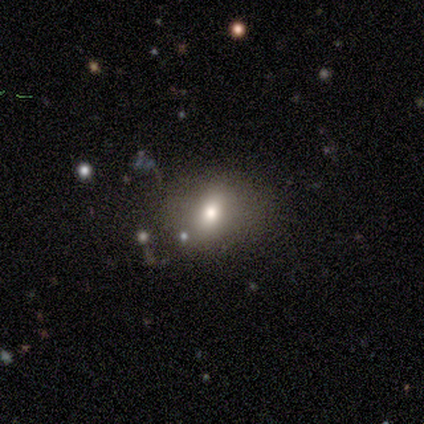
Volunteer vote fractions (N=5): Overall: smooth (80%). How rounded: in between (75%). Merging: none (80%).